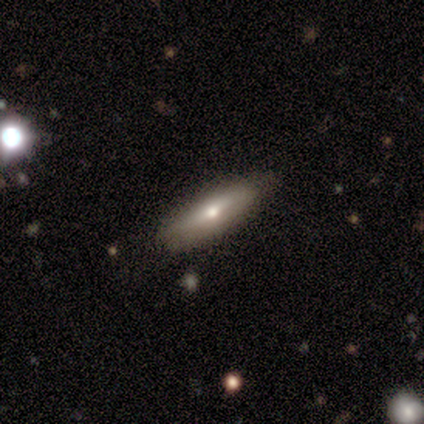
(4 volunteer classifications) A smooth galaxy with no disk features (50%, tied with featured or disk) that is cigar-shaped (100%). Merging: none (100%).